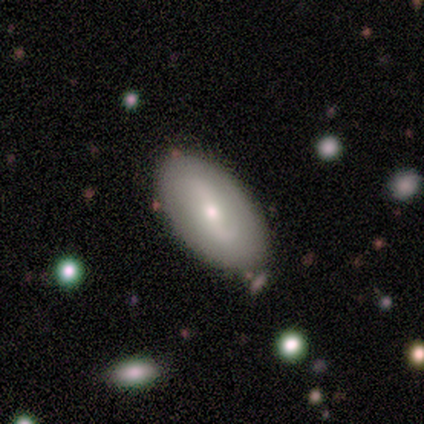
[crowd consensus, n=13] A smooth galaxy with no disk features (54%) that is in between round and cigar-shaped (100%). Merging: none (85%).